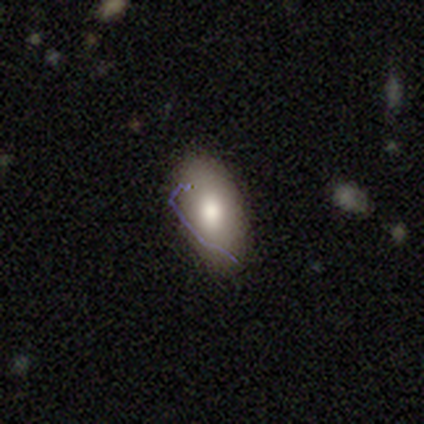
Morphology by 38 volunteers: Smooth or featured? 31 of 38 (82%) said smooth. How rounded? 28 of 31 (90%) said in between. Merging? 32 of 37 (86%) said none.